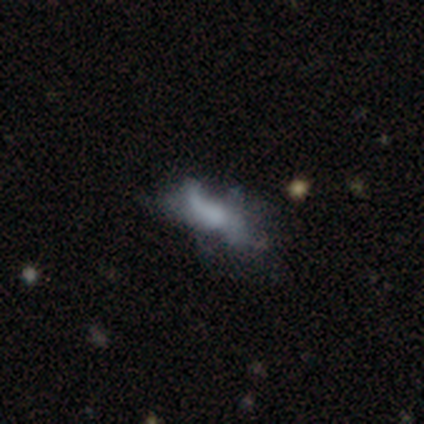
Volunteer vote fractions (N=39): Morphology: type=featured or disk (44%); edge-on=no (94%); bar=no (94%); spiral arms=no (69%); bulge=none (62%); merging=none (39%).